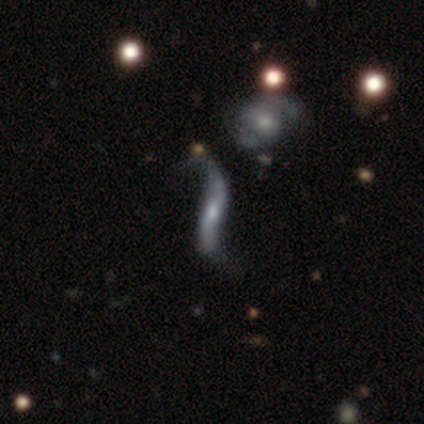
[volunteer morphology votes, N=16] Q: Smooth or featured?
A: featured or disk (88%); runner-up: smooth (6%)
Q: Edge-on disk?
A: no (64%); runner-up: yes (36%)
Q: Bar?
A: no (44%); runner-up: strong (33%)
Q: Spiral arms?
A: yes (100%)
Q: Spiral winding?
A: loose (100%)
Q: Spiral arm count?
A: 2 (89%); runner-up: can't tell (11%)
Q: Bulge size?
A: moderate (67%); runner-up: small (22%)
Q: Merging?
A: none (47%); runner-up: minor disturbance (40%)